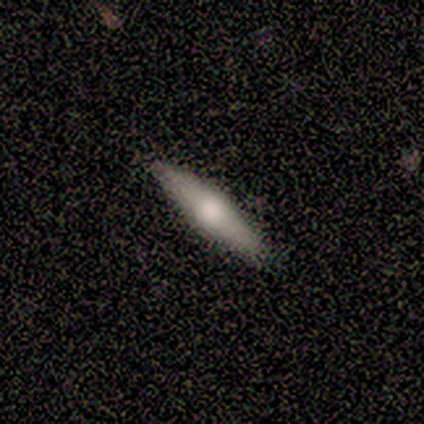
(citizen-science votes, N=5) Q: Smooth or featured?
A: featured or disk (60%); runner-up: smooth (40%)
Q: Edge-on disk?
A: yes (100%)
Q: Edge-on bulge?
A: rounded (67%); runner-up: boxy (33%)
Q: Merging?
A: none (80%); runner-up: minor disturbance (20%)